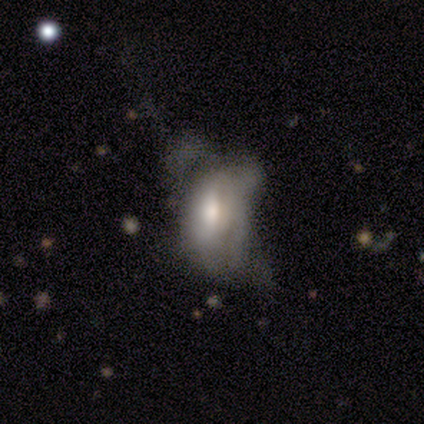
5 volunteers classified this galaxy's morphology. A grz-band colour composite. It shows a smooth galaxy with no disk features (40%, tied with featured or disk) that is in between round and cigar-shaped (100%). Merging: major disturbance (100%).